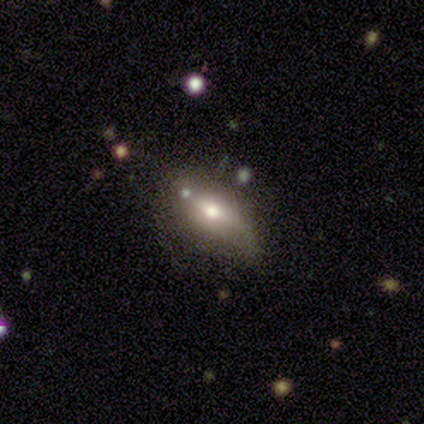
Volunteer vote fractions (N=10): Overall: smooth (50%; featured or disk 30%). How rounded: in between (100%). Merging: none (62%; minor disturbance 25%).